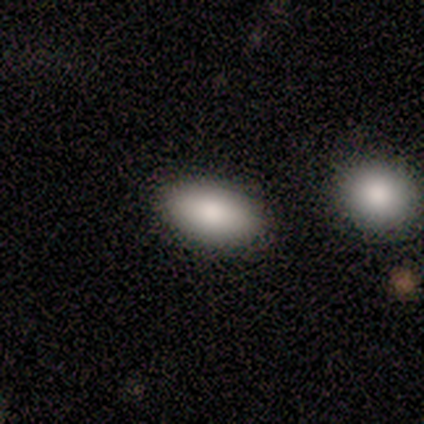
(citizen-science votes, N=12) smooth_or_featured: smooth (p=0.83) [alt: featured or disk p=0.08]
how_rounded: in between (p=1.00)
merging: none (p=0.82) [alt: minor disturbance p=0.09]